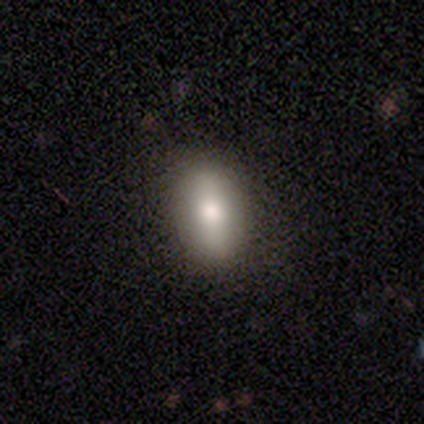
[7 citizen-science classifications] smooth 57%, featured or disk 29%, star or artifact 14%. Down the decision tree: how rounded — in between (100%); merging — none (83%).